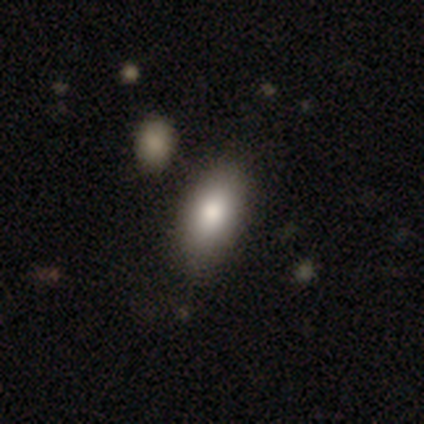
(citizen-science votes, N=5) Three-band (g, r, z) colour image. It shows a smooth galaxy with no disk features (100%) that is in between round and cigar-shaped (80%). Merging: none (80%).